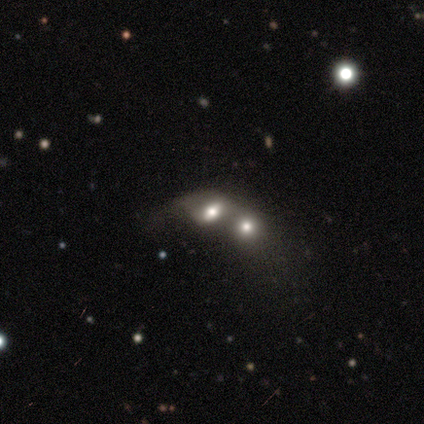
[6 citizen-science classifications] A smooth galaxy with no disk features (50%) that is round (67%). Merging: merger (100%).